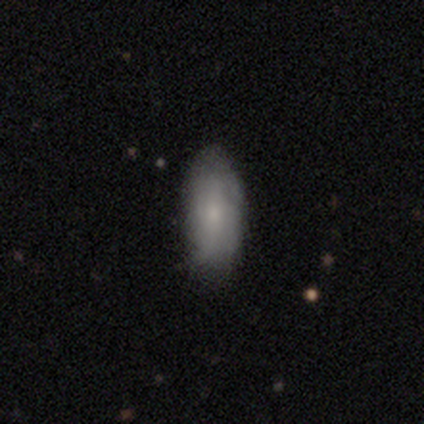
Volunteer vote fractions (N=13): smooth 54%, featured or disk 46%, star or artifact 0%. Down the decision tree: how rounded — in between (86%); merging — none (77%).